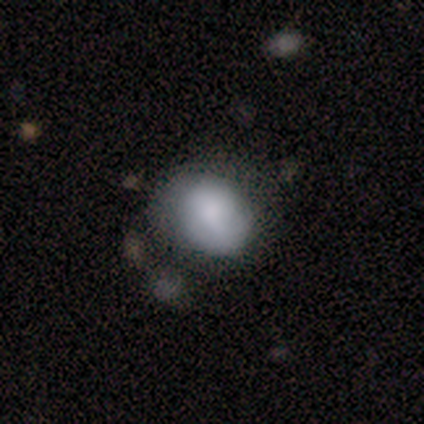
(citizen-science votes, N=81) Overall: smooth (75%). How rounded: in between (67%; round 33%). Merging: none (51%; minor disturbance 31%).